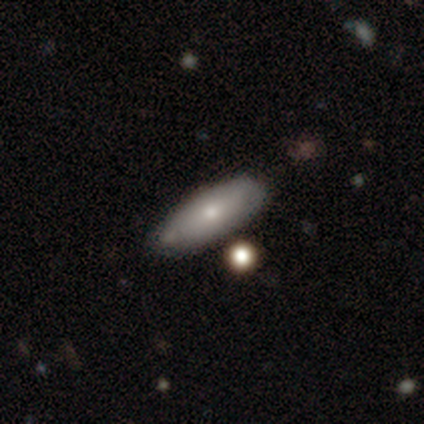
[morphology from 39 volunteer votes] smooth_or_featured: smooth (p=0.85) [alt: featured or disk p=0.15]
how_rounded: in between (p=0.82) [alt: cigar-shaped p=0.15]
merging: none (p=0.77) [alt: minor disturbance p=0.18]